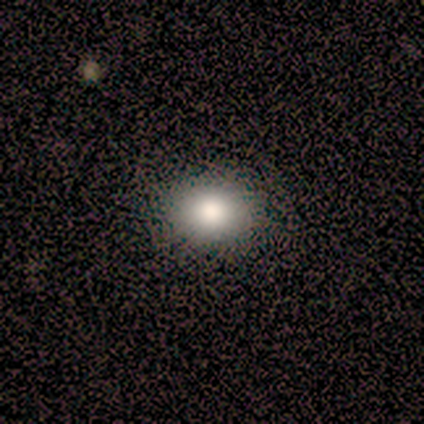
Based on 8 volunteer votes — Smooth or featured? smooth (75%)
How rounded? round (83%)
Merging? none (100%)